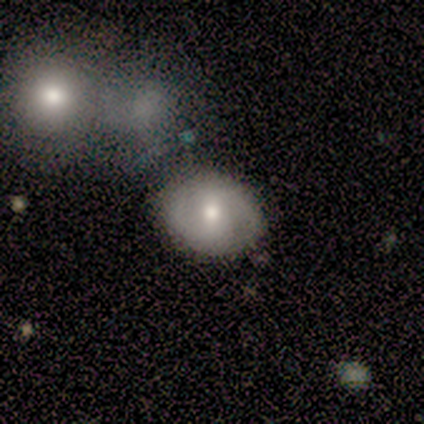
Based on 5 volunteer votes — Smooth or featured? 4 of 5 (80%) said smooth. How rounded? 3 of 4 (75%) said round. Merging? 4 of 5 (80%) said none.